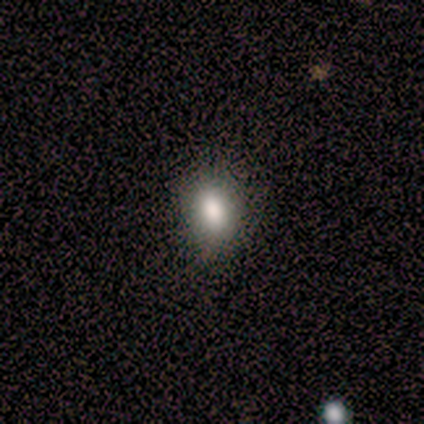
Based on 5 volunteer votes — Overall: smooth (100%). How rounded: round (60%; in between 40%). Merging: none (80%).